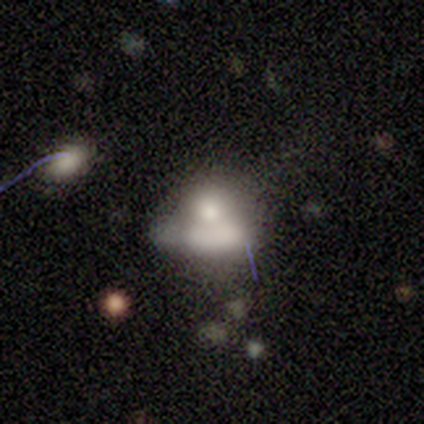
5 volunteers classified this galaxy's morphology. A smooth galaxy with no disk features (40%, tied with featured or disk) that is round (50%, tied with in between).

Vote fractions:
- Smooth or featured? smooth: 40% (tied) / featured or disk: 40% (tied) / star or artifact: 20%
- How rounded? round: 50% (tied) / in between: 50% (tied) / cigar-shaped: 0%
- Merging? merger: 50% / none: 25% / minor disturbance: 25% / major disturbance: 0%